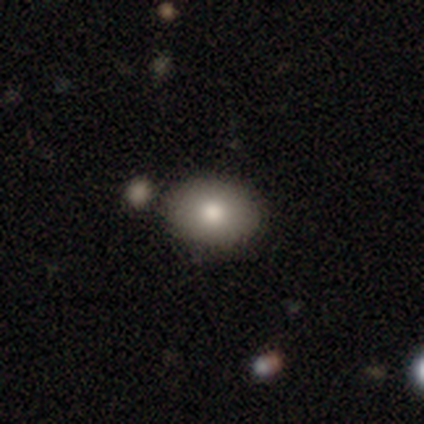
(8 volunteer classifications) Smooth or featured?
  - smooth: 75% *
  - star or artifact: 25%
  - featured or disk: 0%
How rounded?
  - in between: 100% *
  - round: 0%
  - cigar-shaped: 0%
Merging?
  - none: 67% *
  - minor disturbance: 33%
  - major disturbance: 0%
  - merger: 0%